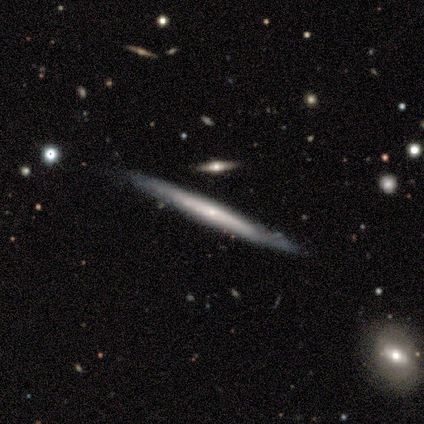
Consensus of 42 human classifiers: This is likely a featured or disk galaxy (76%). It is clearly viewed edge-on (91%). Edge-on bulge: likely none (76%). Merging: clearly none (83%).